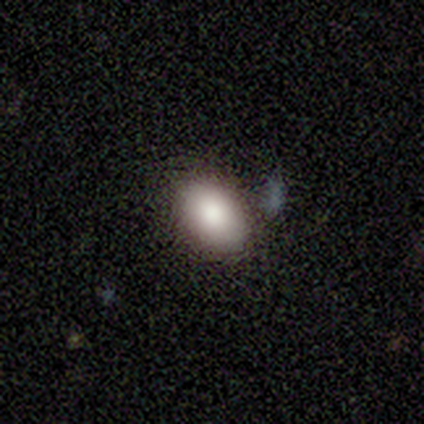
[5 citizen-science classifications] This appears to be a smooth galaxy with no disk features (100%) that is in between round and cigar-shaped (80%). Merging: none (80%).